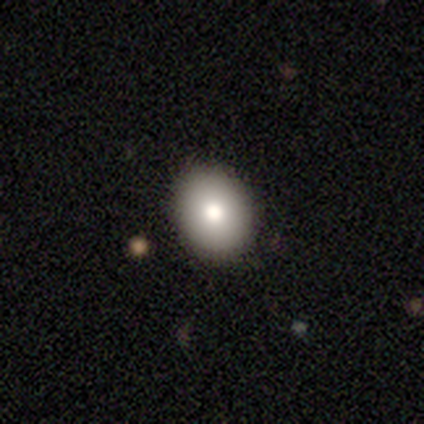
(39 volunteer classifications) Smooth or featured?
  - smooth: 79% *
  - star or artifact: 13%
  - featured or disk: 8%
How rounded?
  - in between: 61% *
  - round: 35%
  - cigar-shaped: 3%
Merging?
  - none: 91% *
  - major disturbance: 6%
  - minor disturbance: 3%
  - merger: 0%